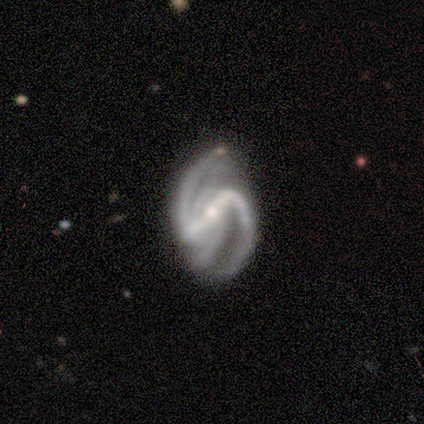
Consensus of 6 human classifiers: This appears to be a featured or disk galaxy (100%) with a strong bar (100%), 2 (50%) medium (67%) spiral arms (100%) and a moderate central bulge (50%, tied with small). Merging: none (67%).